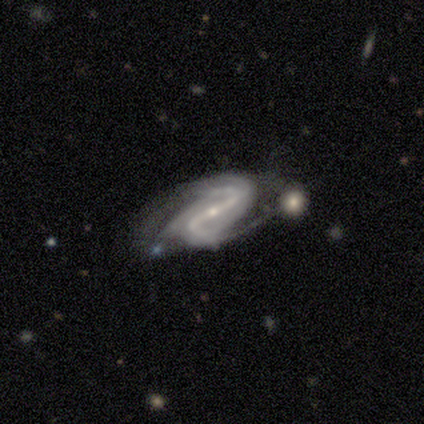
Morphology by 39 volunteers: Smooth or featured: featured or disk — 87% (smooth — 8%)
Edge-on disk: no — 100%
Bar: strong — 76% (weak — 15%)
Spiral arms: yes — 97% (no — 3%)
Spiral winding: medium — 52% (tight — 24%)
Spiral arm count: 2 — 79% (can't tell — 9%)
Bulge size: small — 88% (moderate — 12%)
Merging: none — 49% (major disturbance — 22%)